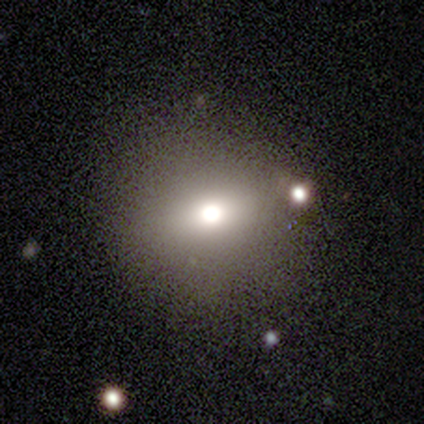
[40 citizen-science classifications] A smooth galaxy with no disk features (50%) that is round (90%).

Vote fractions:
- Smooth or featured? smooth: 50% / featured or disk: 28% / star or artifact: 22%
- How rounded? round: 90% / in between: 10% / cigar-shaped: 0%
- Merging? none: 84% / minor disturbance: 13% / major disturbance: 3% / merger: 0%